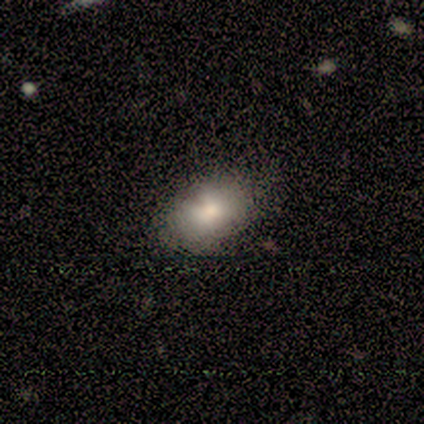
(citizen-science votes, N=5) This is likely a smooth galaxy (60%). How rounded: clearly in between (100%). Merging: likely minor disturbance (60%).